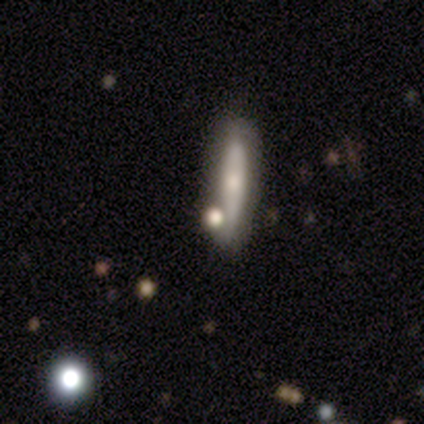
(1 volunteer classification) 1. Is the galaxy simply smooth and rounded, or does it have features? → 100% star or artifact, 0% smooth, 0% featured or disk.